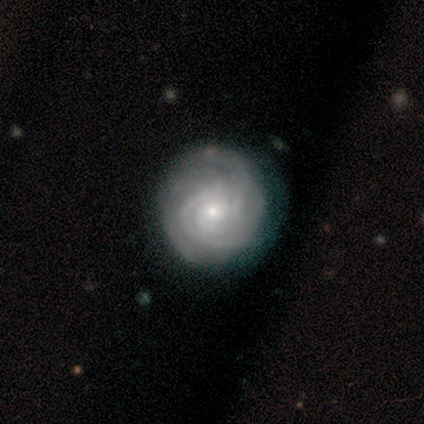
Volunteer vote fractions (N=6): smooth_or_featured: featured or disk (p=1.00)
disk_edge_on: no (p=1.00)
bar: no (p=1.00)
has_spiral_arms: yes (p=1.00)
spiral_winding: tight (p=0.67) [alt: medium p=0.33]
spiral_arm_count: 3 (p=0.83) [alt: can't tell p=0.17]
bulge_size: small (p=1.00)
merging: none (p=1.00)